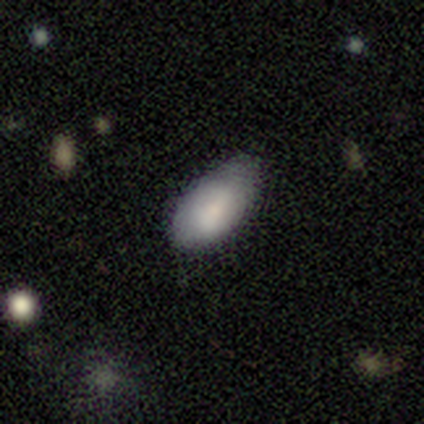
Q: Smooth or featured?
A: smooth (87%); runner-up: featured or disk (13%)
Q: How rounded?
A: in between (97%); runner-up: cigar-shaped (3%)
Q: Merging?
A: none (49%); runner-up: minor disturbance (41%)